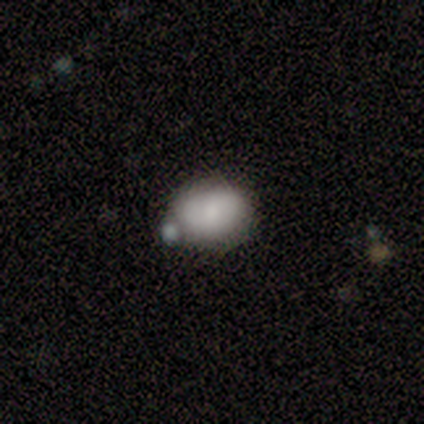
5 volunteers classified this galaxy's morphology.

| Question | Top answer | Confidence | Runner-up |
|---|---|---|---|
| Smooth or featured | smooth | 60% | featured or disk (20%) |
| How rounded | in between | 67% | round (33%) |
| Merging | none | 75% | minor disturbance (25%) |